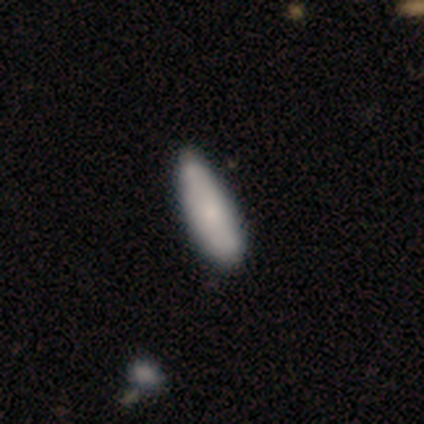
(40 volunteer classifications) This is clearly a smooth galaxy (80%). How rounded: likely in between (66%). Merging: marginally none (41%).